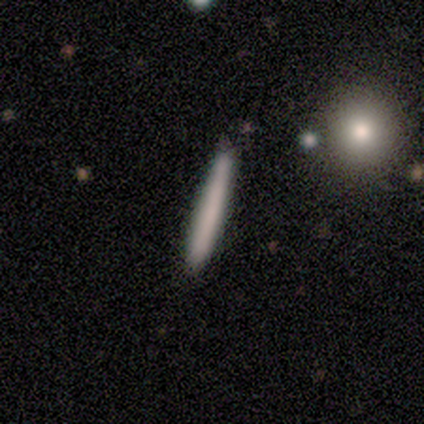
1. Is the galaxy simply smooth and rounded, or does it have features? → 75% smooth, 25% featured or disk, 0% star or artifact.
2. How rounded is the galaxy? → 100% cigar-shaped, 0% round, 0% in between.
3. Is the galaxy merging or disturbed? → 100% none, 0% minor disturbance, 0% major disturbance, 0% merger.